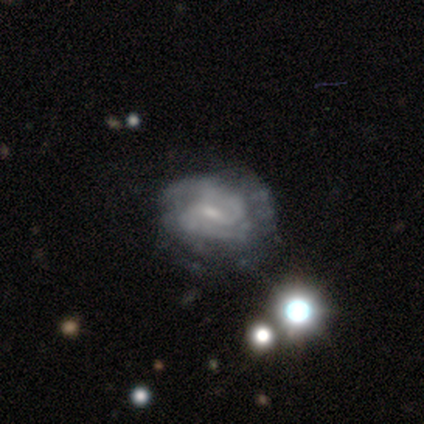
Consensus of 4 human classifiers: Morphology: type=featured or disk (100%); edge-on=no (100%); bar=no (75%); spiral arms=yes (100%); winding=medium (75%); arm count=2 (50%); bulge=small (75%); merging=none (75%).